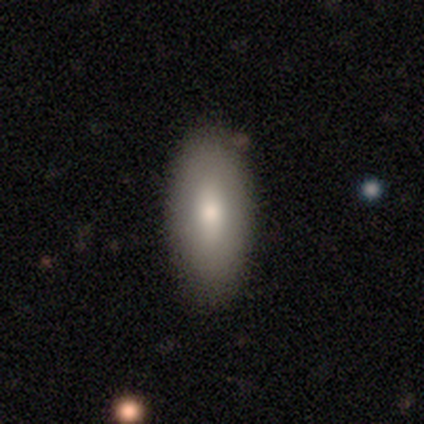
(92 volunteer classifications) Overall: smooth (78%). How rounded: in between (90%). Merging: none (83%).